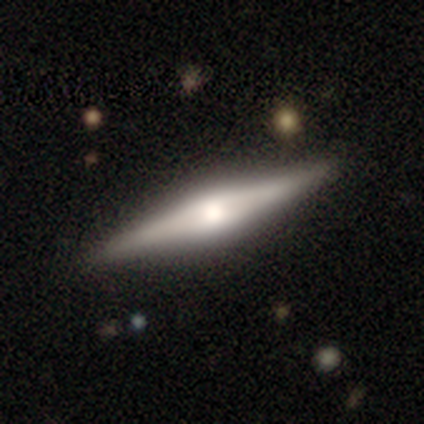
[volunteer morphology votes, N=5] type=smooth (40%, tied with featured or disk); roundness=cigar-shaped (100%); merging=none (75%).